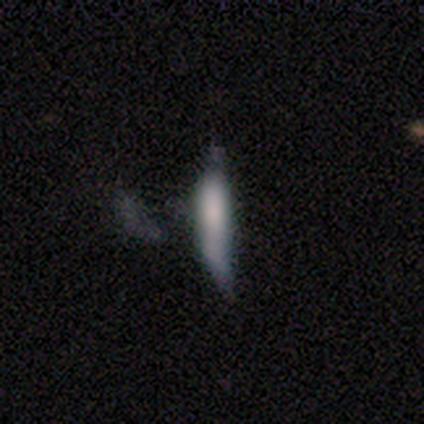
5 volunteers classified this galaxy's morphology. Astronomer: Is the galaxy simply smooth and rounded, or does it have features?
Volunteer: smooth — 100%.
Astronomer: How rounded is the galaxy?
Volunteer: cigar-shaped — 80%.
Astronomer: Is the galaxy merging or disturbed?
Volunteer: none — 40%, tied with minor disturbance at 40%.